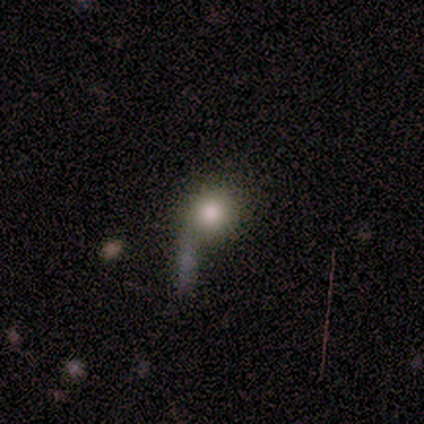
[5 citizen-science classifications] A smooth galaxy with no disk features (100%) that is round (100%). Merging: none (80%).